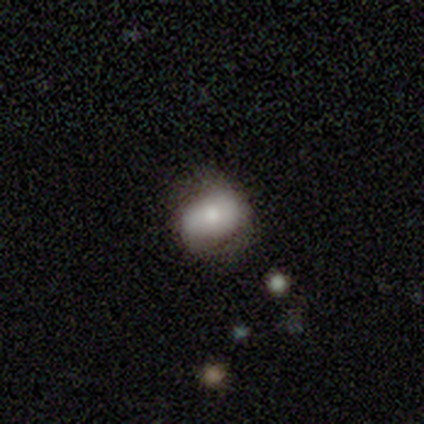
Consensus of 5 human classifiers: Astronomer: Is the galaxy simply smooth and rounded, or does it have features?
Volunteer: smooth — 100%.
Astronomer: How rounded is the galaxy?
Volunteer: in between — 60% (runner-up: round, 40%).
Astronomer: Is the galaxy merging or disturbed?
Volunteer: none — 60%.